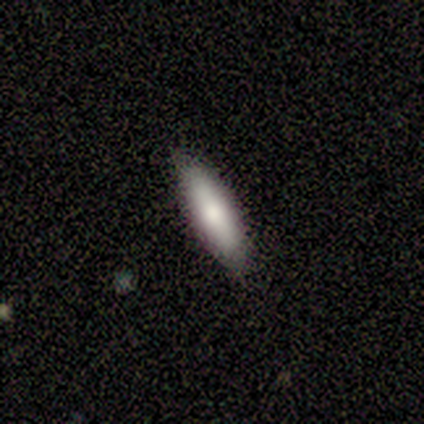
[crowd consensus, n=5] smooth_or_featured: smooth (p=0.60) [alt: featured or disk p=0.40]
how_rounded: cigar-shaped (p=0.67) [alt: in between p=0.33]
merging: none (p=1.00)